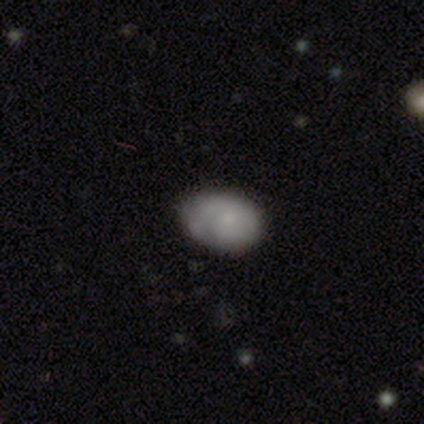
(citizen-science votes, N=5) Smooth or featured?
  - smooth: 60% *
  - featured or disk: 20%
  - star or artifact: 20%
How rounded?
  - in between: 100% *
  - round: 0%
  - cigar-shaped: 0%
Merging?
  - none: 75% *
  - minor disturbance: 25%
  - major disturbance: 0%
  - merger: 0%